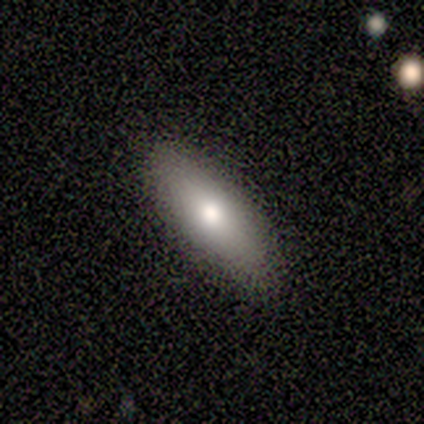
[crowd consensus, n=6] A smooth galaxy with no disk features (100%) that is cigar-shaped (83%). Merging: none (100%).